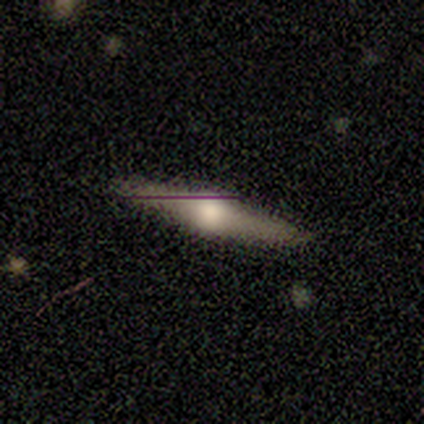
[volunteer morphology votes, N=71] Volunteers were most divided on "smooth or featured": featured or disk: 76%, smooth: 17%, star or artifact: 7%. More confident: edge-on bulge — rounded (100%); edge-on disk — yes (93%); merging — none (89%).